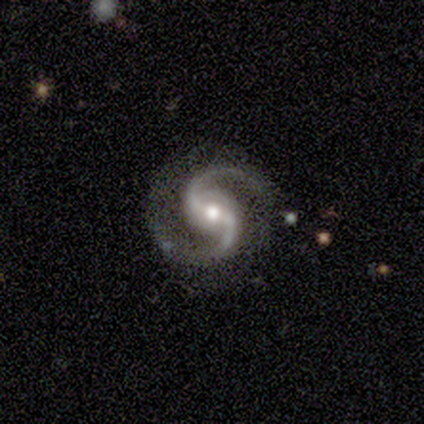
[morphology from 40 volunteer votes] This appears to be a featured or disk galaxy (95%) with a weak bar (46%), 2 (100%) medium (68%) spiral arms (100%) and a moderate central bulge (76%). Merging: none (84%).